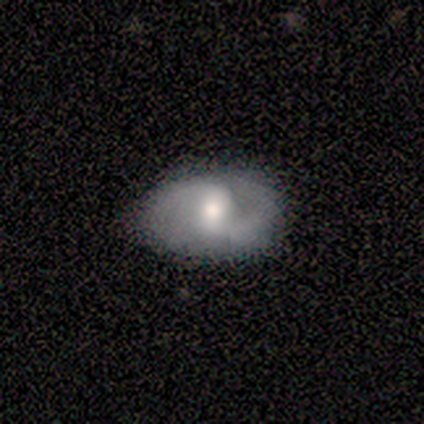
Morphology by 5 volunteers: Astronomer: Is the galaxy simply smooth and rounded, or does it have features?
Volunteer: featured or disk — 80%.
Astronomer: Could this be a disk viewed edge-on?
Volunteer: no — 100%.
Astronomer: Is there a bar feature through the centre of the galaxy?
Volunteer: weak — 75%.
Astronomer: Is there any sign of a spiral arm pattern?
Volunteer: yes — 100%.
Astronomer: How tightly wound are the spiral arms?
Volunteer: medium — 75%.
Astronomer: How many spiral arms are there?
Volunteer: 2 — 100%.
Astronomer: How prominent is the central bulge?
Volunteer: large — 50%.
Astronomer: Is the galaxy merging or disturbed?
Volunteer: none — 100%.